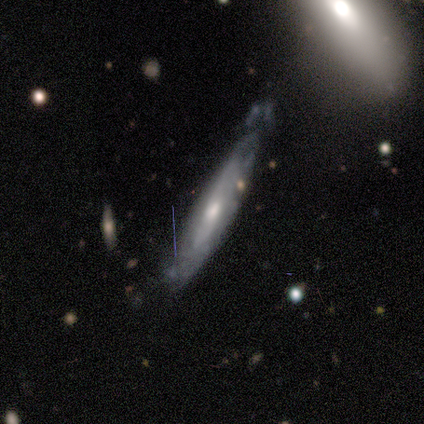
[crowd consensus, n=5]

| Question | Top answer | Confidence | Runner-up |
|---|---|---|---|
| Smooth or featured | featured or disk | 80% | smooth (20%) |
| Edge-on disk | yes | 50% | tied: no (50%) |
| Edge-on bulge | rounded | 100% | — |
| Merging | minor disturbance | 60% | none (20%) |